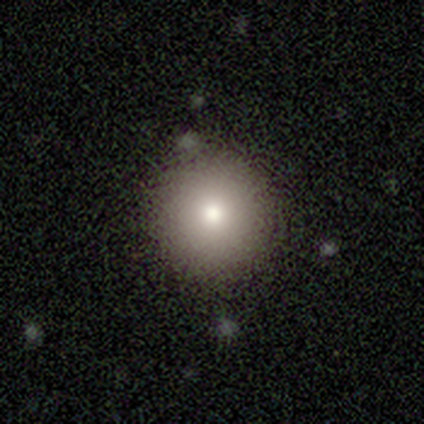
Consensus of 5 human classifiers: A smooth galaxy with no disk features (100%) that is round (100%).

Vote fractions:
- Smooth or featured? smooth: 100% / featured or disk: 0% / star or artifact: 0%
- How rounded? round: 100% / in between: 0% / cigar-shaped: 0%
- Merging? none: 100% / minor disturbance: 0% / major disturbance: 0% / merger: 0%